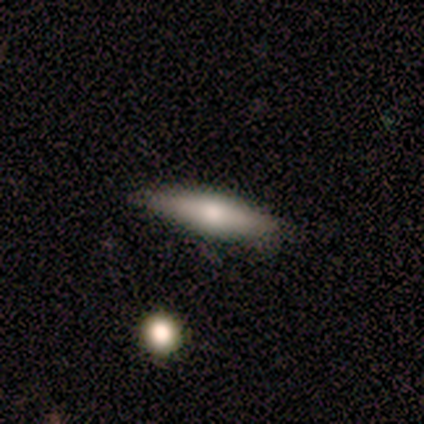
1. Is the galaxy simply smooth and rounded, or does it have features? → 100% smooth, 0% featured or disk, 0% star or artifact.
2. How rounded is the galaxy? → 33% round (tied), 33% in between (tied), 33% cigar-shaped (tied).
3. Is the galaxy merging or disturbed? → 67% none, 33% major disturbance, 0% minor disturbance, 0% merger.